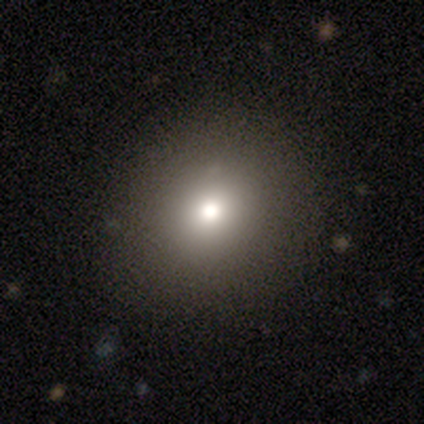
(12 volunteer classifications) Q: Smooth or featured?
A: smooth (67%); runner-up: featured or disk (17%)
Q: How rounded?
A: round (88%); runner-up: in between (12%)
Q: Merging?
A: none (80%); runner-up: minor disturbance (20%)